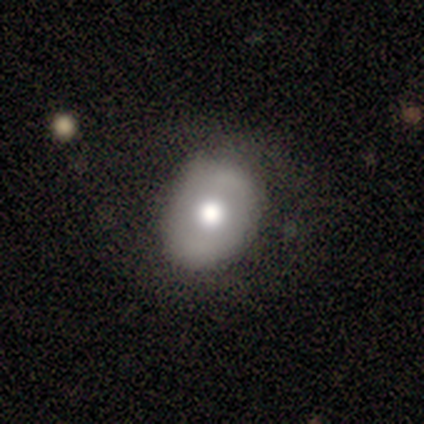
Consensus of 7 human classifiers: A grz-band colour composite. It shows a smooth galaxy with no disk features (71%) that is in between round and cigar-shaped (80%). Merging: none (71%).